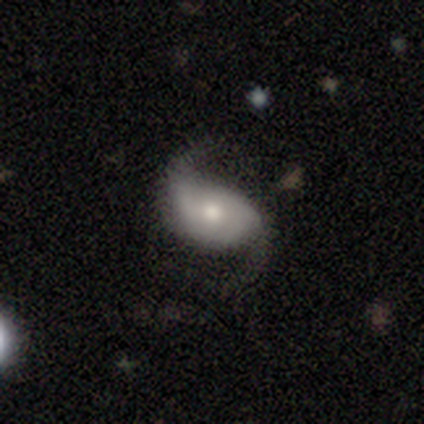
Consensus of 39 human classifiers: featured or disk 77%, smooth 18%, star or artifact 5%. Down the decision tree: edge-on disk — no (100%); bar — no (67%); spiral arms — yes (97%); spiral arm count — 2 (93%); spiral winding — loose (59%); bulge size — moderate (70%); merging — none (54%).